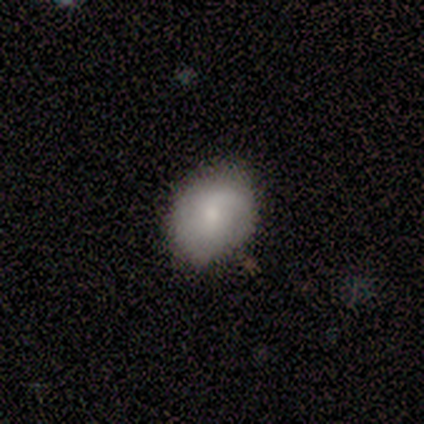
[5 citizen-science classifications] This appears to be a smooth galaxy with no disk features (80%) that is in between round and cigar-shaped (100%). Merging: minor disturbance (75%).